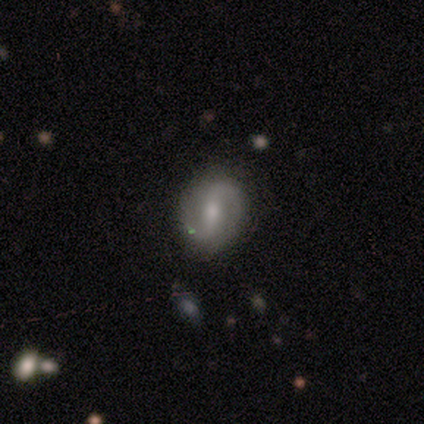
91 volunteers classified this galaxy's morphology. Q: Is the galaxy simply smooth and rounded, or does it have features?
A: featured or disk — 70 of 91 (77%).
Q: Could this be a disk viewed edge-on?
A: no — 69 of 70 (99%).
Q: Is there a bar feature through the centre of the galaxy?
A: strong — 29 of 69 (42%).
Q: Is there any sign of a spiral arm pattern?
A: yes — 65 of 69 (94%).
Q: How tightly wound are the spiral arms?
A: loose — 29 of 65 (45%).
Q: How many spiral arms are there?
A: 2 — 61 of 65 (94%).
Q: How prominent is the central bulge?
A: moderate — 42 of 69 (61%).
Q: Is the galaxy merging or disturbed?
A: none — 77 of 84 (92%).